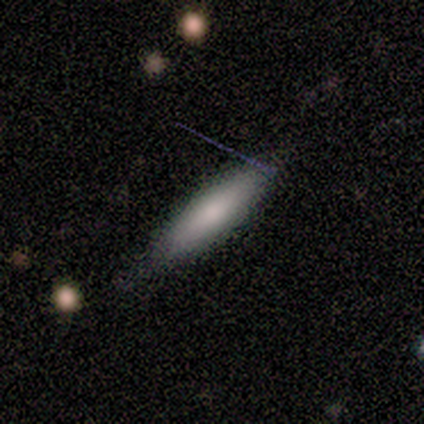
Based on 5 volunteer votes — Morphology: type=smooth (80%); roundness=cigar-shaped (75%); merging=none (80%).